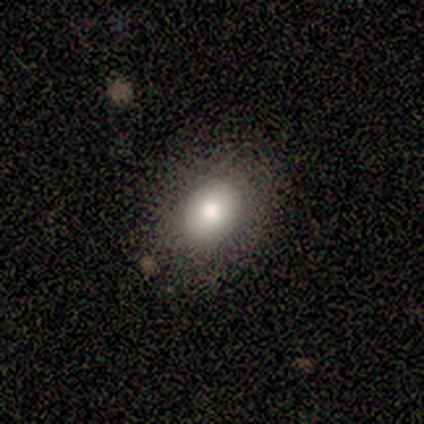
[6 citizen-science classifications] Smooth or featured? 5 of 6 (83%) said smooth. How rounded? 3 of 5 (60%) said in between. Merging? 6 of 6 (100%) said none.